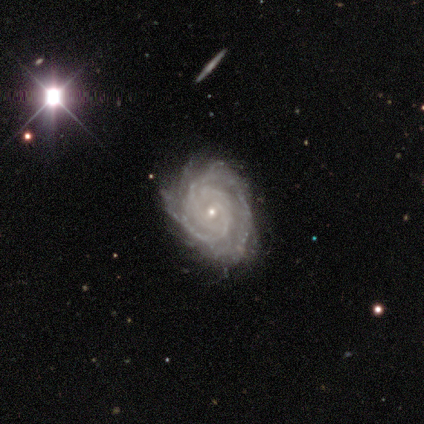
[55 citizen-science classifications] A featured or disk galaxy (91%) with no bar (74%), 2 (36%) tight (90%) spiral arms (100%) and a small central bulge (86%).

Vote fractions:
- Smooth or featured? featured or disk: 91% / star or artifact: 5% / smooth: 4%
- Edge-on disk? no: 100% / yes: 0%
- Bar? no: 74% / weak: 24% / strong: 2%
- Spiral arms? yes: 100% / no: 0%
- Spiral winding? tight: 90% / medium: 8% / loose: 2%
- Spiral arm count? 2: 36% / can't tell: 30% / 3: 16% / 4: 12% / more than 4: 6% / 1: 0%
- Bulge size? small: 86% / moderate: 14% / dominant: 0% / large: 0% / none: 0%
- Merging? none: 54% / minor disturbance: 42% / major disturbance: 4% / merger: 0%